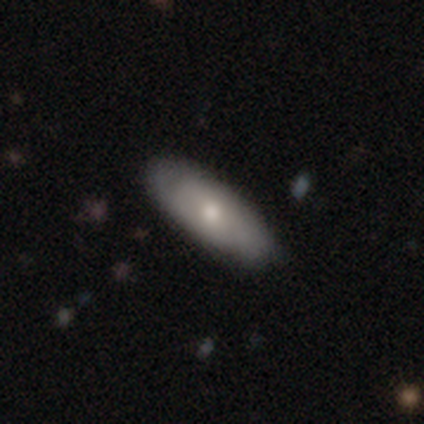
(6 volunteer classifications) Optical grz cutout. It shows a smooth galaxy with no disk features (83%) that is in between round and cigar-shaped (80%). Merging: none (100%).